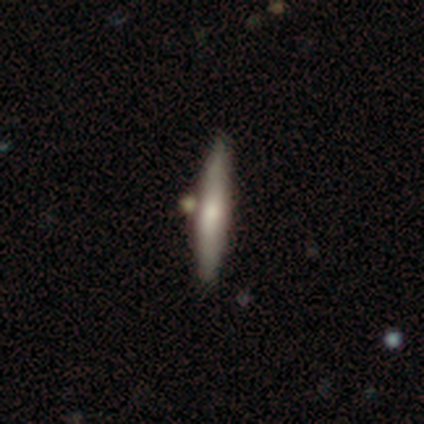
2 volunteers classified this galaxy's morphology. smooth-or-featured: smooth: 50% (tied) | star or artifact: 50% (tied) | featured or disk: 0%
  how-rounded: cigar-shaped: 100% | round: 0% | in between: 0%
  merging: none: 100% | minor disturbance: 0% | major disturbance: 0% | merger: 0%